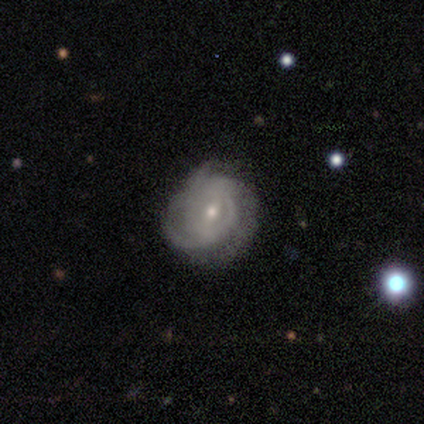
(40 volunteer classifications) Morphology: type=featured or disk (80%); edge-on=no (97%); bar=weak (65%); spiral arms=yes (94%); winding=tight (45%); arm count=can't tell (38%); bulge=small (68%); merging=none (58%).